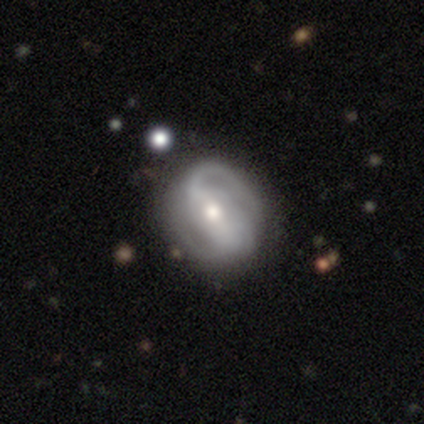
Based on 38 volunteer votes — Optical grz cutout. It shows a featured or disk galaxy (92%) with a strong bar (42%), 2 (64%) tight (43%) spiral arms (85%) and a moderate central bulge (70%). Merging: none (66%).